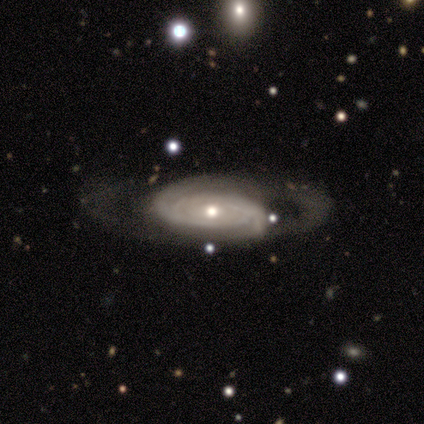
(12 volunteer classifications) Smooth or featured?
  - featured or disk: 83% *
  - smooth: 17%
  - star or artifact: 0%
Edge-on disk?
  - no: 90% *
  - yes: 10%
Bar?
  - no: 67% *
  - weak: 22%
  - strong: 11%
Spiral arms?
  - yes: 89% *
  - no: 11%
Spiral winding?
  - tight: 88% *
  - medium: 12%
  - loose: 0%
Spiral arm count?
  - can't tell: 50% *
  - 2: 25%
  - 3: 12%
  - 4: 12%
  - 1: 0%
  - more than 4: 0%
Bulge size?
  - small: 56% *
  - moderate: 44%
  - dominant: 0%
  - large: 0%
  - none: 0%
Merging?
  - none: 58% *
  - major disturbance: 33%
  - minor disturbance: 8%
  - merger: 0%